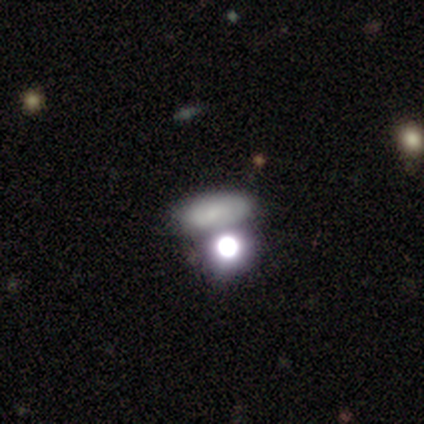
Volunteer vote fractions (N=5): This is likely a smooth galaxy (60%). How rounded: likely in between (67%). Merging: likely none (67%).